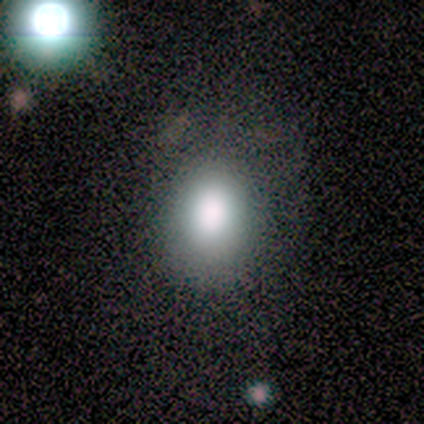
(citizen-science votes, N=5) Overall: smooth (80%). How rounded: in between (75%). Merging: none (100%).